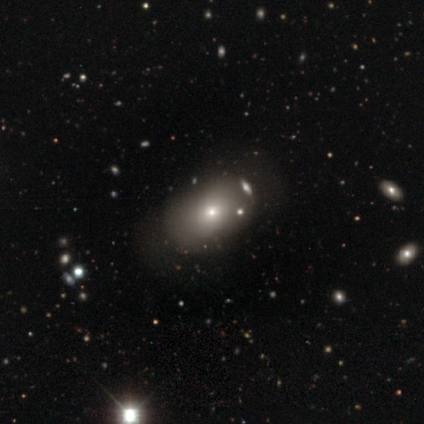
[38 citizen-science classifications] This is likely a smooth galaxy (74%). How rounded: likely in between (75%). Merging: likely none (67%).